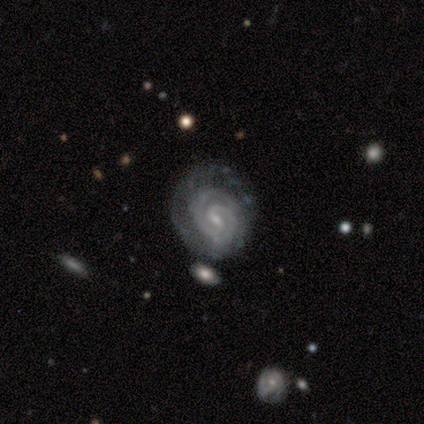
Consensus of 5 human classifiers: Smooth or featured? 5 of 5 (100%) said featured or disk. Edge-on disk? 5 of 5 (100%) said no. Bar? 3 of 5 (60%) said weak. Spiral arms? 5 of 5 (100%) said yes. Spiral winding? 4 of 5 (80%) said tight. Spiral arm count? 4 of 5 (80%) said 2. Bulge size? 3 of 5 (60%) said small. Merging? 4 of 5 (80%) said none.